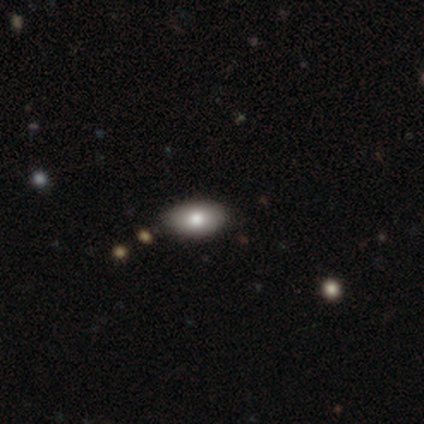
smooth_or_featured: smooth (p=1.00)
how_rounded: in between (p=1.00)
merging: none (p=0.80) [alt: minor disturbance p=0.20]